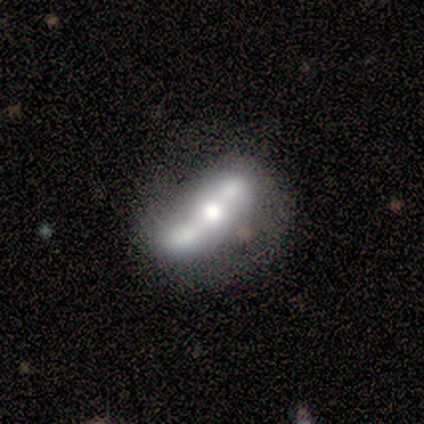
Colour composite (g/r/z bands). It shows a featured or disk galaxy (67%) with a weak bar (67%), no spiral arms (100%) and a moderate central bulge (67%). Merging: none (67%).